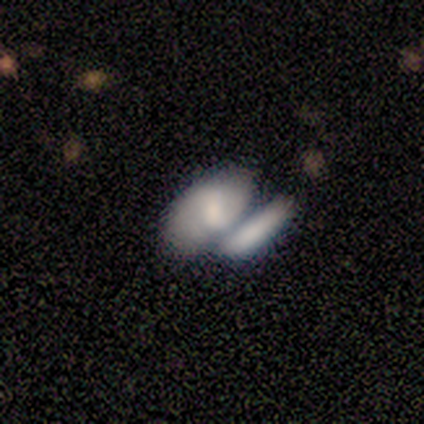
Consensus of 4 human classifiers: Smooth or featured? 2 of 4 (50%) said featured or disk. Edge-on disk? 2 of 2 (100%) said no. Bar? 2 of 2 (100%) said weak. Spiral arms? 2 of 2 (100%) said yes. Spiral winding? 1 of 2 (50%, tied with medium) said tight. Spiral arm count? 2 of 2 (100%) said 2. Bulge size? 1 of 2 (50%, tied with small) said moderate. Merging? 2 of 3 (67%) said merger.